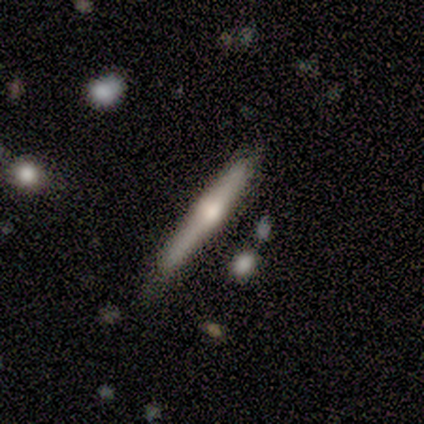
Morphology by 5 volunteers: type=featured or disk (60%); edge-on=yes (100%); edge-on bulge=rounded (100%); merging=none (80%).